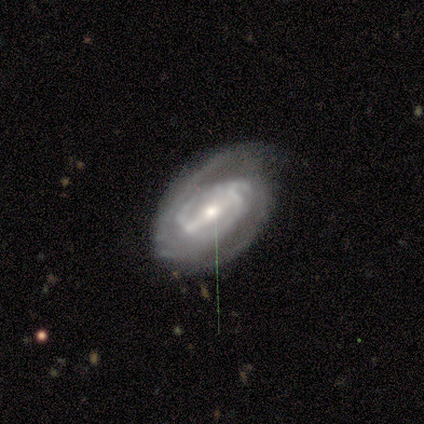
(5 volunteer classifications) Smooth or featured? 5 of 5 (100%) said featured or disk. Edge-on disk? 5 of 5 (100%) said no. Bar? 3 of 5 (60%) said weak. Spiral arms? 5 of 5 (100%) said yes. Spiral winding? 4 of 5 (80%) said tight. Spiral arm count? 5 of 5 (100%) said 2. Bulge size? 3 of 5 (60%) said small. Merging? 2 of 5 (40%, tied with minor disturbance) said none.